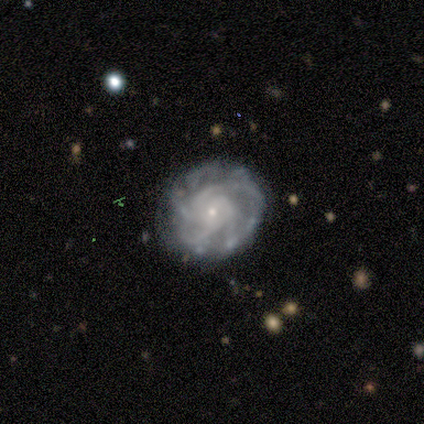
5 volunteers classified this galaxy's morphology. type=featured or disk (100%); edge-on=no (100%); bar=no (60%); spiral arms=yes (100%); winding=tight (80%); arm count=more than 4 (60%); bulge=small (80%); merging=none (100%).